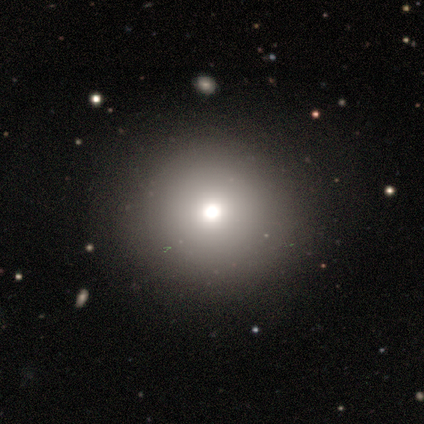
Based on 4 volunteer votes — smooth-or-featured: smooth: 50% (tied) | star or artifact: 50% (tied) | featured or disk: 0%
  how-rounded: round: 100% | in between: 0% | cigar-shaped: 0%
  merging: none: 100% | minor disturbance: 0% | major disturbance: 0% | merger: 0%